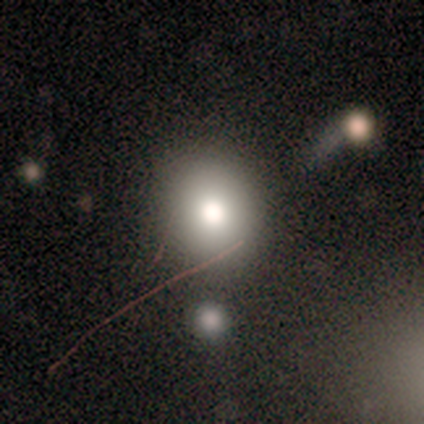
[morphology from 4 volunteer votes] A smooth galaxy with no disk features (75%) that is round (67%).

Vote fractions:
- Smooth or featured? smooth: 75% / featured or disk: 25% / star or artifact: 0%
- How rounded? round: 67% / in between: 33% / cigar-shaped: 0%
- Merging? none: 75% / merger: 25% / minor disturbance: 0% / major disturbance: 0%